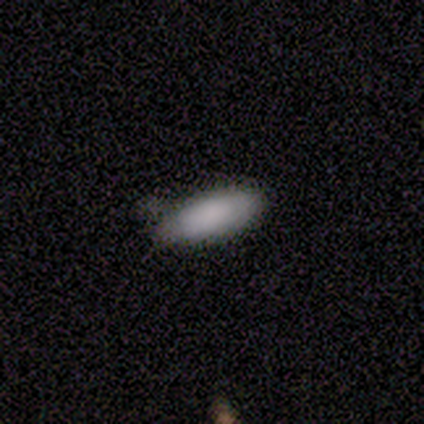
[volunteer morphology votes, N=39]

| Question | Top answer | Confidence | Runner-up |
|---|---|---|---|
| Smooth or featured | smooth | 87% | featured or disk (10%) |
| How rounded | in between | 68% | cigar-shaped (32%) |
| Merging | none | 74% | minor disturbance (21%) |